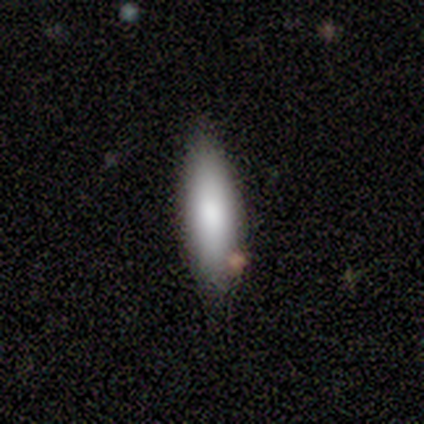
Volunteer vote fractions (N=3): Overall: smooth (100%). How rounded: in between (67%; cigar-shaped 33%). Merging: none (67%; minor disturbance 33%).